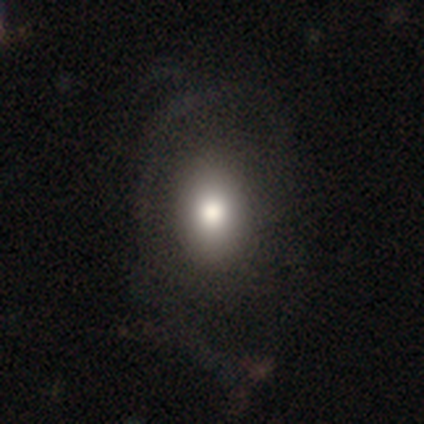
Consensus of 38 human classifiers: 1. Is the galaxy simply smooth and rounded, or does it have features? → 79% smooth, 21% featured or disk, 0% star or artifact.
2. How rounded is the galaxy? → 73% in between, 27% round, 0% cigar-shaped.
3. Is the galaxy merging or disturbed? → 37% none, 18% major disturbance, 8% minor disturbance, 0% merger.